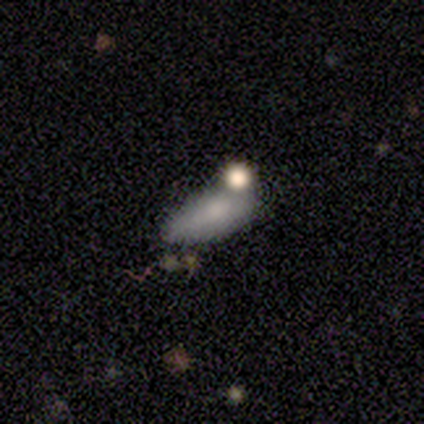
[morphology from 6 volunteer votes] smooth_or_featured: smooth (p=1.00)
how_rounded: in between (p=0.83) [alt: cigar-shaped p=0.17]
merging: none (p=0.50) [alt: merger p=0.33]